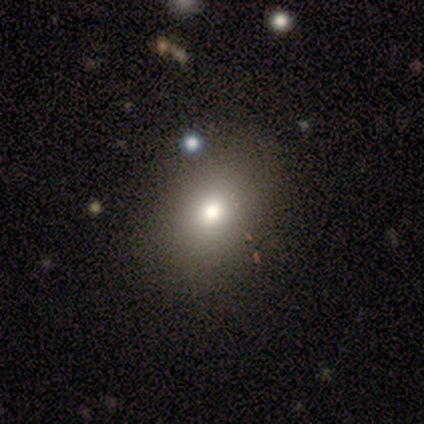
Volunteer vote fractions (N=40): This appears to be a smooth galaxy with no disk features (60%) that is in between round and cigar-shaped (58%). Merging: none (55%).